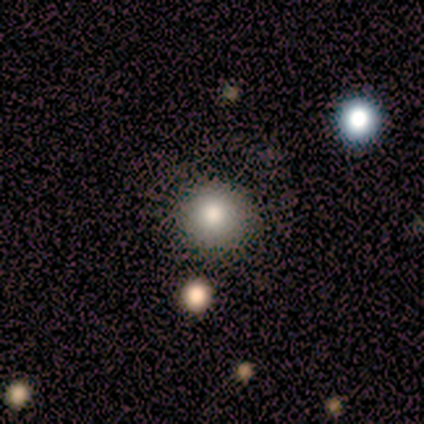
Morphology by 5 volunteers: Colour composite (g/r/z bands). It shows a smooth galaxy with no disk features (100%) that is round (100%). Merging: none (60%).